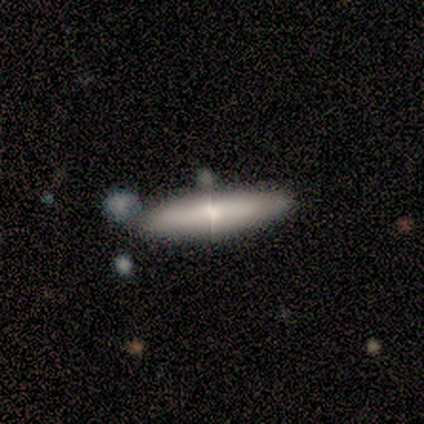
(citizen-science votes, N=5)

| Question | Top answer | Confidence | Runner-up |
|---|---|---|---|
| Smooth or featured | smooth | 80% | featured or disk (20%) |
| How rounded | in between | 50% | tied: cigar-shaped (50%) |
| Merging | none | 100% | — |